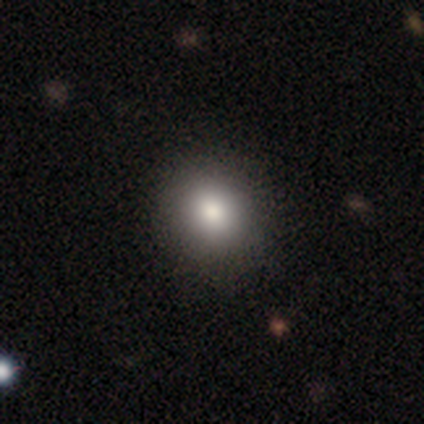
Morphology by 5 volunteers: Smooth or featured?
  - smooth: 60% *
  - star or artifact: 40%
  - featured or disk: 0%
How rounded?
  - in between: 67% *
  - round: 33%
  - cigar-shaped: 0%
Merging?
  - none: 100% *
  - minor disturbance: 0%
  - major disturbance: 0%
  - merger: 0%